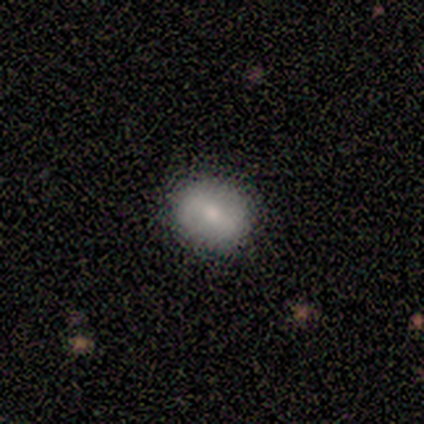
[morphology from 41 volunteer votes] This is possibly a smooth galaxy (54%). How rounded: possibly round (55%). Merging: clearly none (82%).